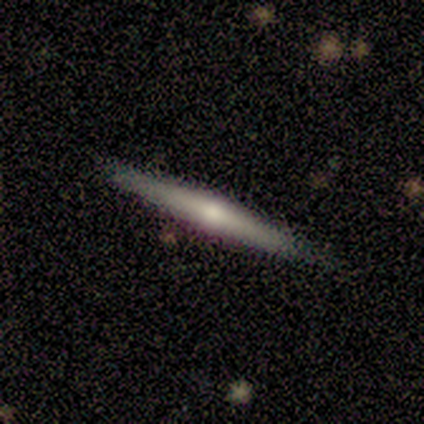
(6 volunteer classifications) Overall: smooth (50%; featured or disk 33%). How rounded: cigar-shaped (100%). Merging: none (100%).